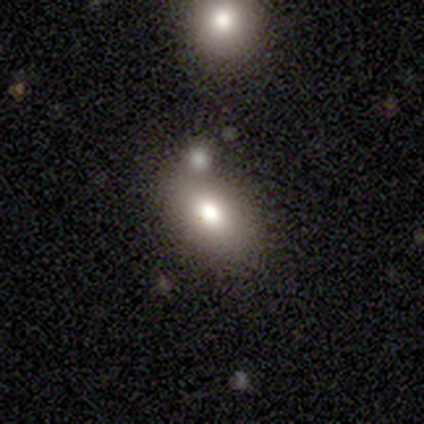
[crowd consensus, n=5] Smooth or featured? 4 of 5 (80%) said smooth. How rounded? 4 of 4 (100%) said in between. Merging? 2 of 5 (40%, tied with merger) said none.